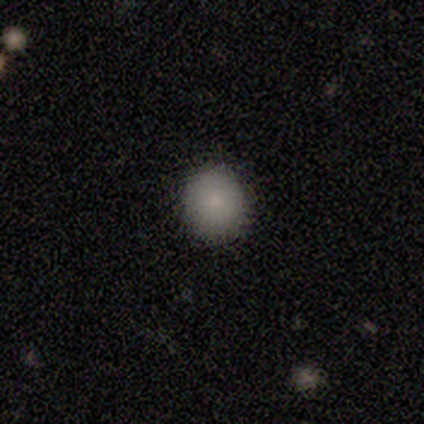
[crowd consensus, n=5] Smooth or featured: smooth — 100%
How rounded: round — 60% (in between — 40%)
Merging: none — 100%